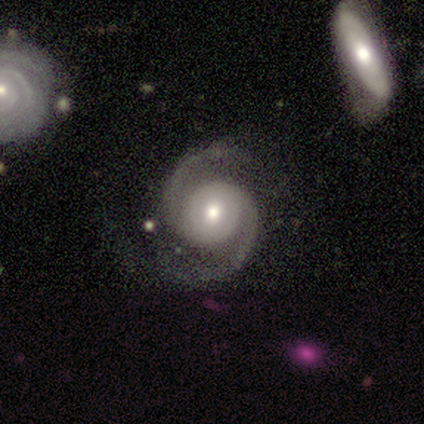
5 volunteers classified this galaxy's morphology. A featured or disk galaxy (100%) with no bar (60%), 2 (100%) tight (60%) spiral arms (100%) and a moderate central bulge (60%).

Vote fractions:
- Smooth or featured? featured or disk: 100% / smooth: 0% / star or artifact: 0%
- Edge-on disk? no: 100% / yes: 0%
- Bar? no: 60% / strong: 20% / weak: 20%
- Spiral arms? yes: 100% / no: 0%
- Spiral winding? tight: 60% / medium: 20% / loose: 20%
- Spiral arm count? 2: 100% / 1: 0% / 3: 0% / 4: 0% / more than 4: 0% / can't tell: 0%
- Bulge size? moderate: 60% / large: 40% / dominant: 0% / small: 0% / none: 0%
- Merging? none: 80% / minor disturbance: 20% / major disturbance: 0% / merger: 0%